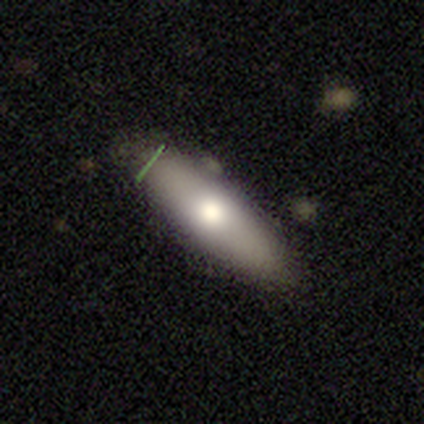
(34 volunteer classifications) Morphology: type=smooth (62%); roundness=cigar-shaped (52%); merging=none (88%).